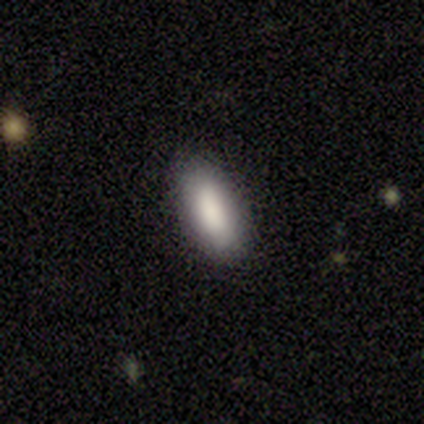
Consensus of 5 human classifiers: Smooth or featured: smooth — 80% (star or artifact — 20%)
How rounded: in between — 75% (cigar-shaped — 25%)
Merging: none — 75% (minor disturbance — 25%)